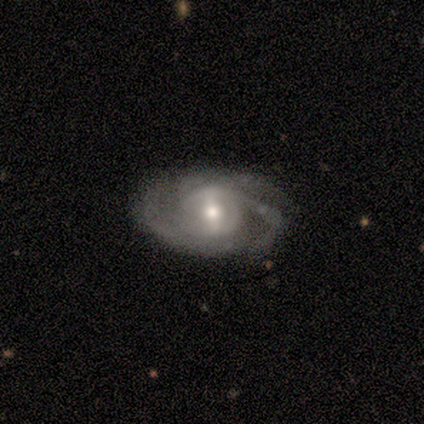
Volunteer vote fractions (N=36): Smooth or featured: featured or disk — 97% (smooth — 3%)
Edge-on disk: no — 97% (yes — 3%)
Bar: weak — 47% (strong — 32%)
Spiral arms: yes — 91% (no — 9%)
Spiral winding: medium — 58% (tight — 29%)
Spiral arm count: 2 — 45% (3 — 32%)
Bulge size: moderate — 50% (small — 41%)
Merging: none — 47% (minor disturbance — 17%)